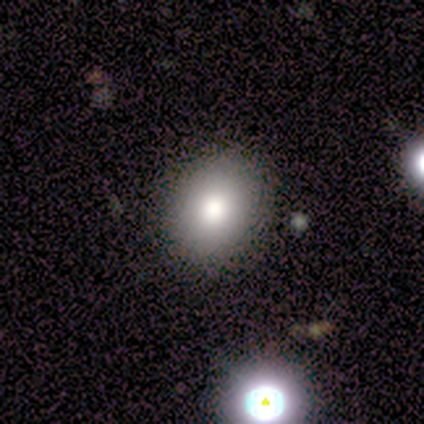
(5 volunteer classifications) Q: Smooth or featured?
A: smooth (80%); runner-up: star or artifact (20%)
Q: How rounded?
A: in between (75%); runner-up: round (25%)
Q: Merging?
A: none (100%)